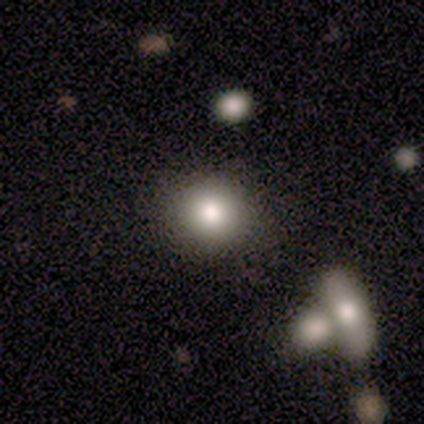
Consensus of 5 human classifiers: smooth 100%, featured or disk 0%, star or artifact 0%. Down the decision tree: how rounded — round (80%); merging — none (80%).